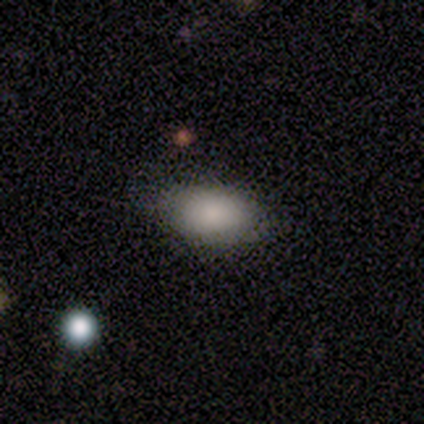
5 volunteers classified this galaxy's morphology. Overall: smooth (100%). How rounded: in between (100%). Merging: none (80%).